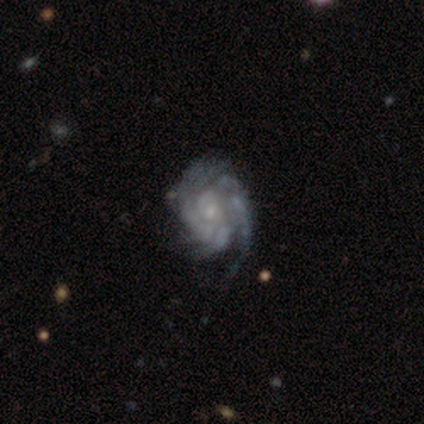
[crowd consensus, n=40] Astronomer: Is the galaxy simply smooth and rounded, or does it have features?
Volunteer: featured or disk — 92%.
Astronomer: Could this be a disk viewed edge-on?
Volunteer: no — 100%.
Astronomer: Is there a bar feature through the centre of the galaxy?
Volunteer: no — 70%.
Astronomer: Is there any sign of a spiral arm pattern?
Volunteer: yes — 95%.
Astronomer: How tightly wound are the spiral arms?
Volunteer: tight — 69%.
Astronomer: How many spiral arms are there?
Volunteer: can't tell — 51%.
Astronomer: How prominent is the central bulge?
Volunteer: small — 70%.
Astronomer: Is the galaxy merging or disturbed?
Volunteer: minor disturbance — 37% (runner-up: none, 26%).